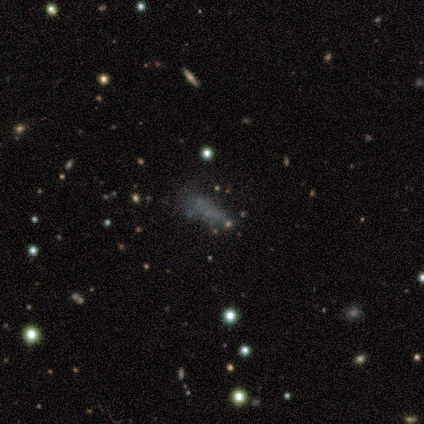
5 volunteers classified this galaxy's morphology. Smooth or featured? 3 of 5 (60%) said star or artifact.